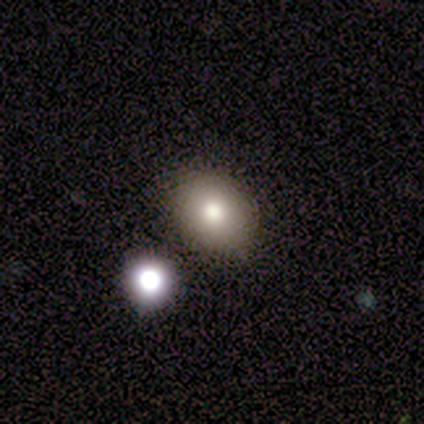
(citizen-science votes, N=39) smooth-or-featured: smooth: 74% | featured or disk: 13% | star or artifact: 13%
  how-rounded: in between: 66% | round: 34% | cigar-shaped: 0%
  merging: none: 91% | minor disturbance: 6% | merger: 3% | major disturbance: 0%